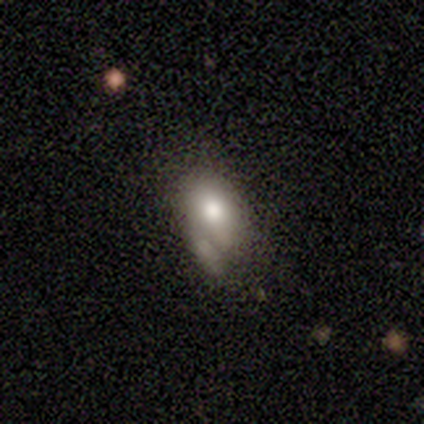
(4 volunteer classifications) Smooth or featured: smooth — 100%
How rounded: round — 50% (tied with in between — 50%)
Merging: none — 50% (tied with merger — 50%)